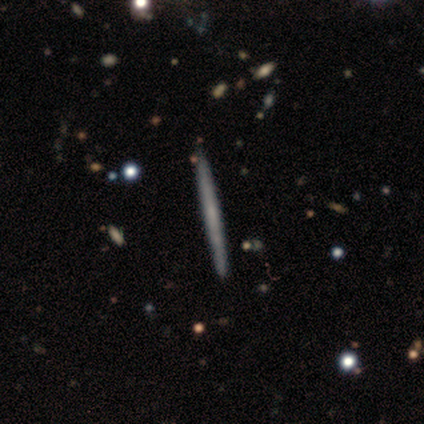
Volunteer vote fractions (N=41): This is likely a featured or disk galaxy (68%). It is clearly viewed edge-on (100%). Edge-on bulge: clearly none (89%). Merging: clearly none (95%).